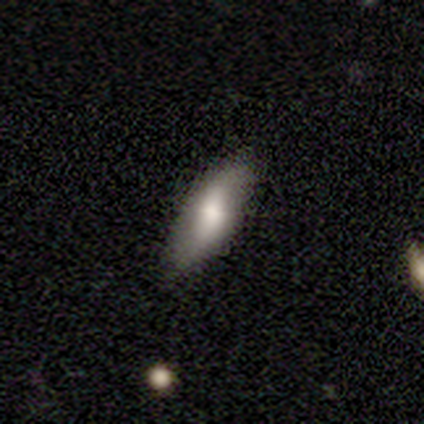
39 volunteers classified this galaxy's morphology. A smooth galaxy with no disk features (67%) that is in between round and cigar-shaped (65%). Merging: none (74%).